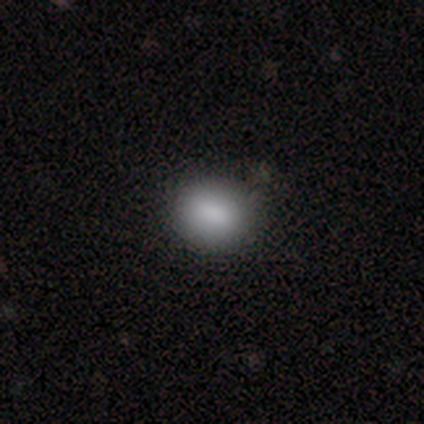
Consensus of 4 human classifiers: Smooth or featured? smooth (100%)
How rounded? in between (75%)
Merging? none (75%)